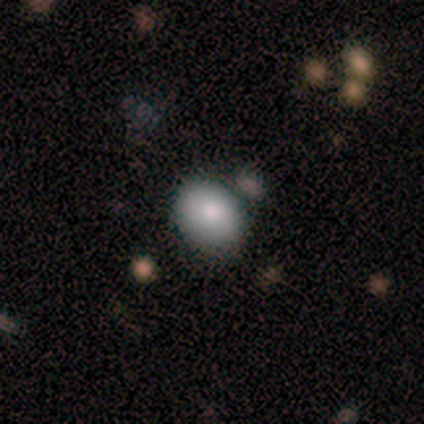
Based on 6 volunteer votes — smooth 67%, featured or disk 33%, star or artifact 0%. Down the decision tree: how rounded — in between (100%); merging — none (50%).